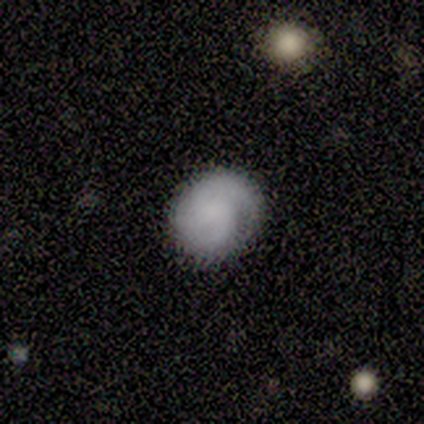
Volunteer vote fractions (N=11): smooth_or_featured: smooth (p=0.64) [alt: featured or disk p=0.36]
how_rounded: in between (p=0.57) [alt: round p=0.43]
merging: none (p=0.64) [alt: minor disturbance p=0.27]